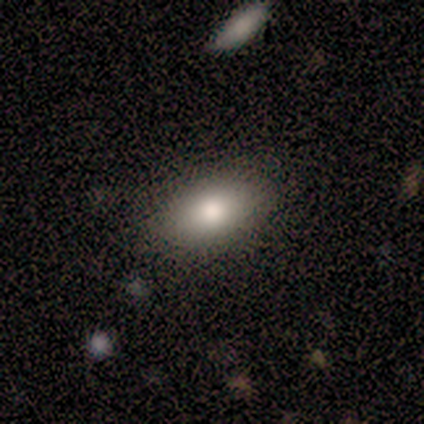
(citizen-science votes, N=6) Volunteers were most divided on "smooth or featured": smooth: 83%, featured or disk: 17%, star or artifact: 0%. More confident: how rounded — in between (100%); merging — none (100%).